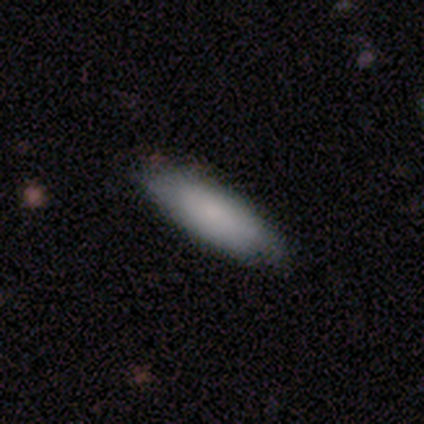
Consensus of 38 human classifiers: Smooth or featured?
  - smooth: 68% *
  - featured or disk: 18%
  - star or artifact: 13%
How rounded?
  - in between: 65% *
  - cigar-shaped: 35%
  - round: 0%
Merging?
  - none: 85% *
  - minor disturbance: 9%
  - major disturbance: 6%
  - merger: 0%